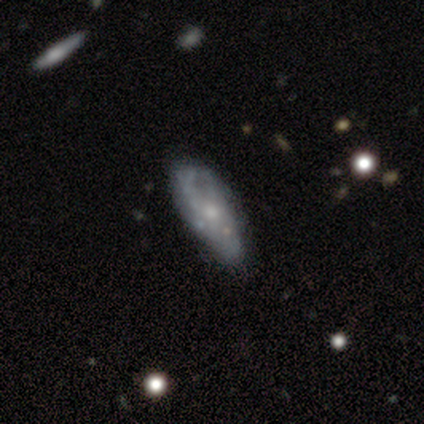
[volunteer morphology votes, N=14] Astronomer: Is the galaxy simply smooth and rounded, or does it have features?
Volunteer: featured or disk — 57% (runner-up: smooth, 36%).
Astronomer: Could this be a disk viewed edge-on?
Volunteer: no — 100%.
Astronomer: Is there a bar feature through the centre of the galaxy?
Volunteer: no — 100%.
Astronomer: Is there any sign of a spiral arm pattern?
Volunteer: no — 75%.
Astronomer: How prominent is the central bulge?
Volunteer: small — 50% (runner-up: moderate, 38%).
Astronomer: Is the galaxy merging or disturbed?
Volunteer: minor disturbance — 69%.